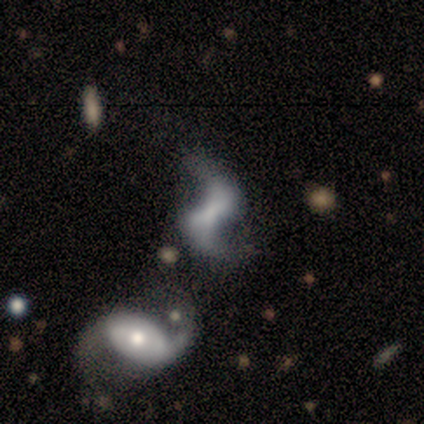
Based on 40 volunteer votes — A featured or disk galaxy (80%) with a weak bar (59%), 2 (96%) loose (85%) spiral arms (84%) and no central bulge (44%).

Vote fractions:
- Smooth or featured? featured or disk: 80% / smooth: 15% / star or artifact: 5%
- Edge-on disk? no: 100% / yes: 0%
- Bar? weak: 59% / strong: 22% / no: 19%
- Spiral arms? yes: 84% / no: 16%
- Spiral winding? loose: 85% / medium: 15% / tight: 0%
- Spiral arm count? 2: 96% / 1: 4% / 3: 0% / 4: 0% / more than 4: 0% / can't tell: 0%
- Bulge size? none: 44% / small: 38% / moderate: 12% / large: 6% / dominant: 0%
- Merging? none: 39% / merger: 34% / minor disturbance: 13% / major disturbance: 13%